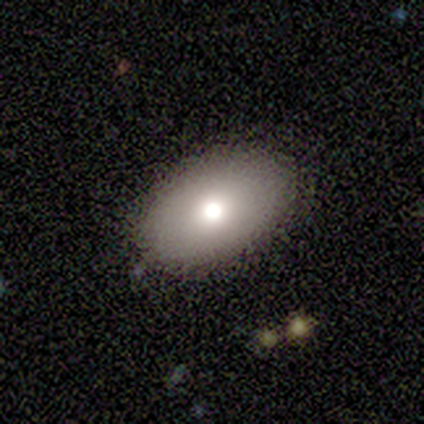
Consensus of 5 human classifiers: Overall: smooth (60%; featured or disk 40%). How rounded: in between (100%). Merging: none (80%).